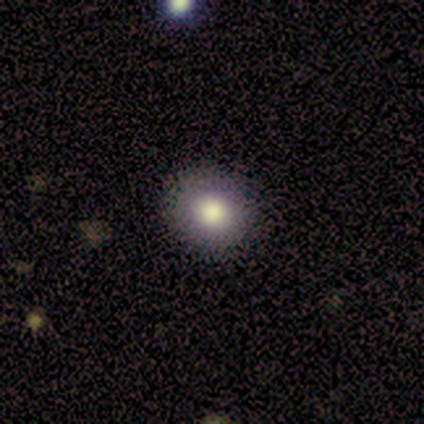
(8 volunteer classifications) This appears to be a smooth galaxy with no disk features (100%) that is round (75%). Merging: none (88%).